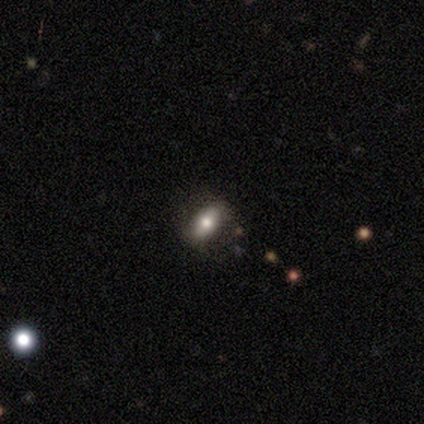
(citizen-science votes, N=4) Smooth or featured: smooth — 75% (featured or disk — 25%)
How rounded: in between — 100%
Merging: none — 75% (minor disturbance — 25%)